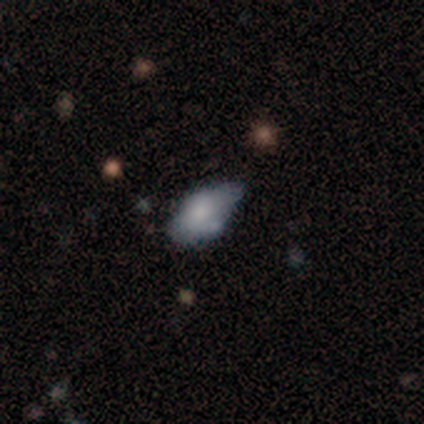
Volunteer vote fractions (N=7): smooth-or-featured: smooth: 71% | featured or disk: 29% | star or artifact: 0%
  how-rounded: in between: 100% | round: 0% | cigar-shaped: 0%
  merging: minor disturbance: 71% | none: 14% | merger: 14% | major disturbance: 0%